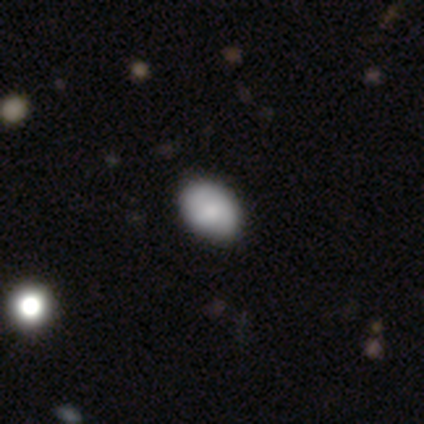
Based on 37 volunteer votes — Smooth or featured? 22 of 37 (59%) said smooth. How rounded? 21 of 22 (95%) said in between. Merging? 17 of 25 (68%) said none.